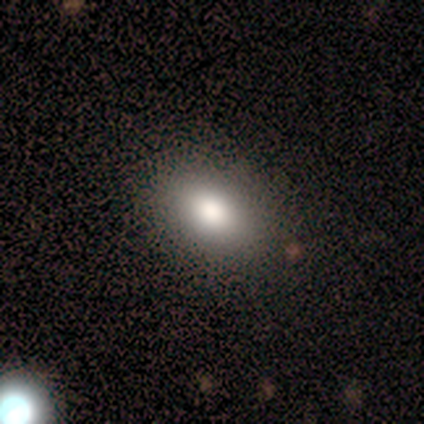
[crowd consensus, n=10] Smooth or featured? 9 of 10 (90%) said smooth. How rounded? 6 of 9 (67%) said in between. Merging? 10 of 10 (100%) said none.